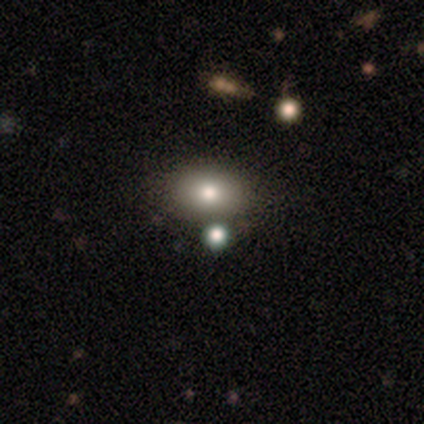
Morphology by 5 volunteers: smooth 80%, featured or disk 20%, star or artifact 0%. Down the decision tree: how rounded — in between (75%); merging — none (80%).